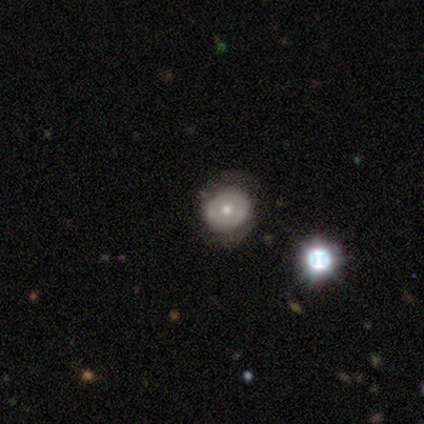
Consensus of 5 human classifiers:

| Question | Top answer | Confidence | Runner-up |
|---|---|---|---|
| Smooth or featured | smooth | 60% | featured or disk (40%) |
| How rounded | in between | 67% | round (33%) |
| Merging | none | 40% | tied: minor disturbance (40%) |